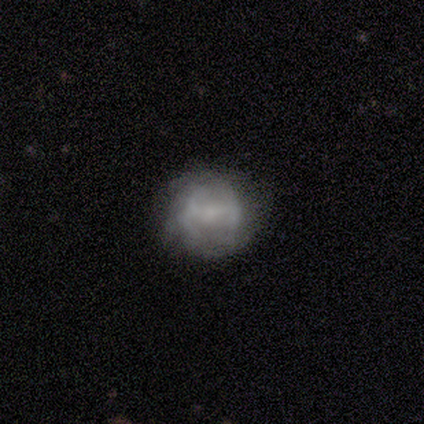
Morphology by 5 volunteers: smooth-or-featured: featured or disk: 60% | smooth: 20% | star or artifact: 20%
  disk-edge-on: no: 100% | yes: 0%
    bar: strong: 33% (tied) | weak: 33% (tied) | no: 33% (tied)
    has-spiral-arms: no: 100% | yes: 0%
    bulge-size: small: 67% | none: 33% | dominant: 0% | large: 0% | moderate: 0%
  merging: none: 50% (tied) | minor disturbance: 50% (tied) | major disturbance: 0% | merger: 0%